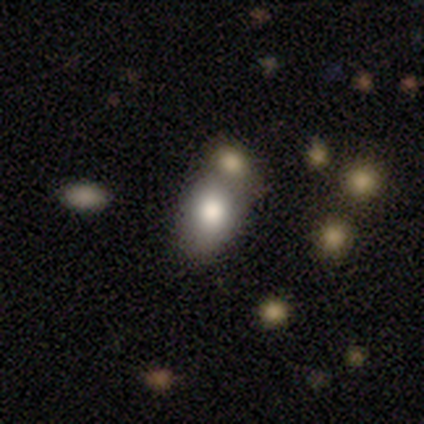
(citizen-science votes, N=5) Q: Smooth or featured?
A: smooth (100%)
Q: How rounded?
A: in between (80%); runner-up: round (20%)
Q: Merging?
A: none (60%); runner-up: minor disturbance (20%)